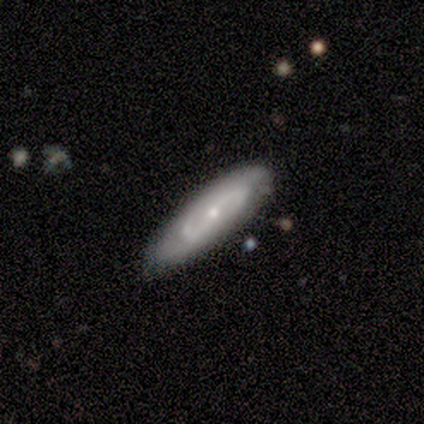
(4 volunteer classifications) A featured or disk galaxy (100%) with a strong bar (50%, tied with weak), 2 (50%, tied with can't tell) tight (100%) spiral arms (100%) and a small central bulge (75%). Merging: none (75%).